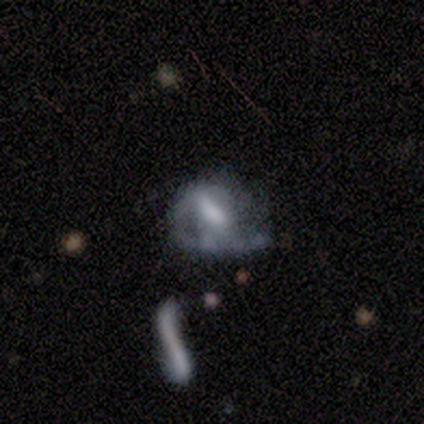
smooth-or-featured: featured or disk: 60% | smooth: 20% | star or artifact: 20%
  disk-edge-on: no: 100% | yes: 0%
    bar: weak: 67% | strong: 33% | no: 0%
    has-spiral-arms: yes: 67% | no: 33%
      spiral-winding: medium: 100% | tight: 0% | loose: 0%
      spiral-arm-count: 1: 50% (tied) | can't tell: 50% (tied) | 2: 0% | 3: 0% | 4: 0% | more than 4: 0%
    bulge-size: large: 33% (tied) | moderate: 33% (tied) | small: 33% (tied) | dominant: 0% | none: 0%
  merging: major disturbance: 75% | minor disturbance: 25% | none: 0% | merger: 0%